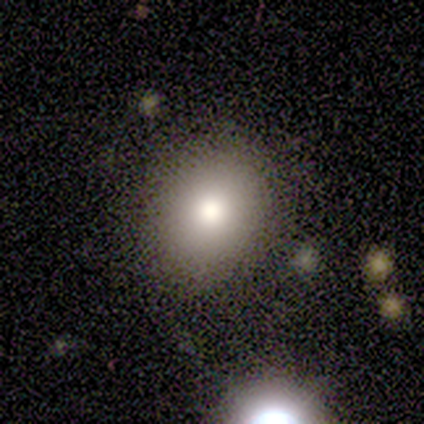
Morphology: type=smooth (87%); roundness=in between (54%); merging=none (77%).